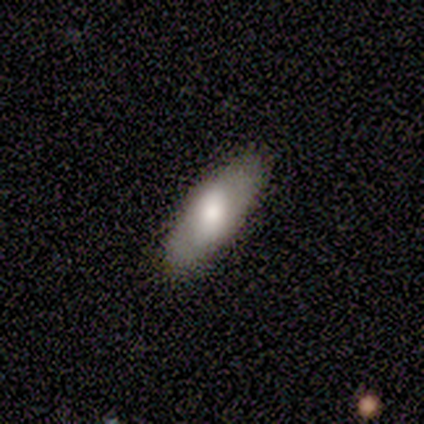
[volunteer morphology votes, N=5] Smooth or featured: smooth — 80% (featured or disk — 20%)
How rounded: in between — 50% (tied with cigar-shaped — 50%)
Merging: none — 100%